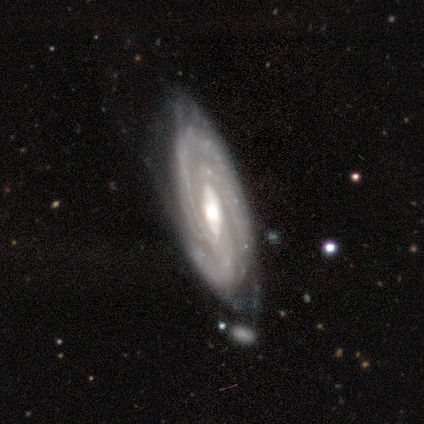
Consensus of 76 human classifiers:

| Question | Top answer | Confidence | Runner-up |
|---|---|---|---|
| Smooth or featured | featured or disk | 89% | smooth (9%) |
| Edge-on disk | no | 84% | yes (16%) |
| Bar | weak | 58% | strong (23%) |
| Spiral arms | yes | 91% | no (9%) |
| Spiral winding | tight | 73% | medium (21%) |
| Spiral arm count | can't tell | 37% | 3 (31%) |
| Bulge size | moderate | 72% | large (23%) |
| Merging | none | 44% | minor disturbance (31%) |